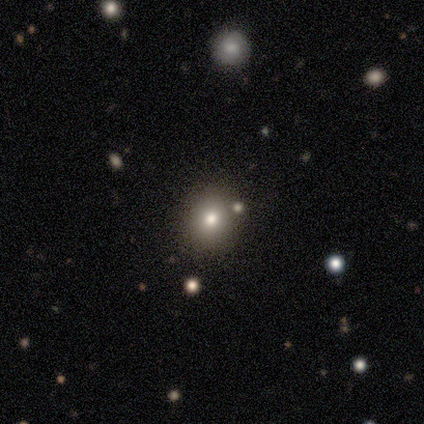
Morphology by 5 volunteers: Smooth or featured? smooth (100%)
How rounded? round (80%)
Merging? none (100%)